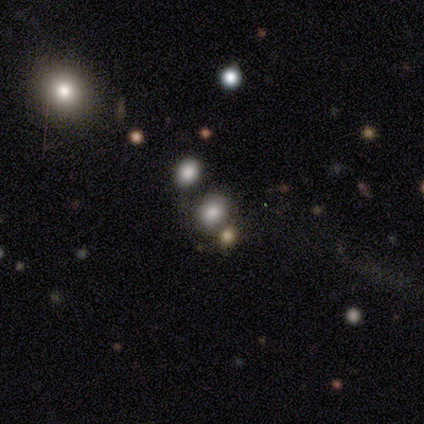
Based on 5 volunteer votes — Morphology: type=smooth (60%); roundness=in between (67%); merging=merger (67%).